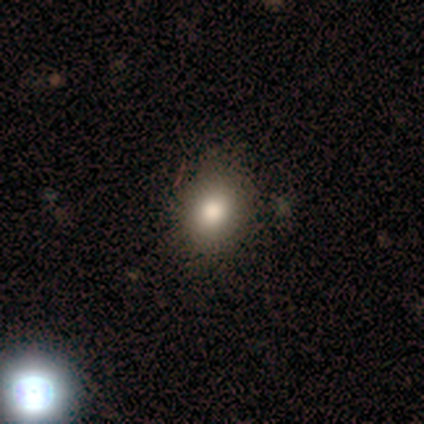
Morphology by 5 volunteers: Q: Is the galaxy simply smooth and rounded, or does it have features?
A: smooth — 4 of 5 (80%).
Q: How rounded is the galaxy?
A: in between — 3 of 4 (75%).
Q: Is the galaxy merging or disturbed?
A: none — 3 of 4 (75%).